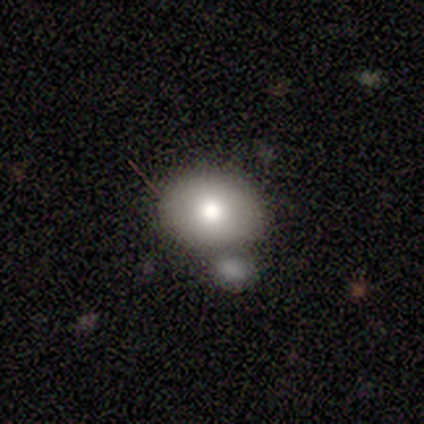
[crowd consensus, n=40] Overall: smooth (57%; featured or disk 32%). How rounded: in between (52%; round 48%). Merging: none (53%; merger 22%).